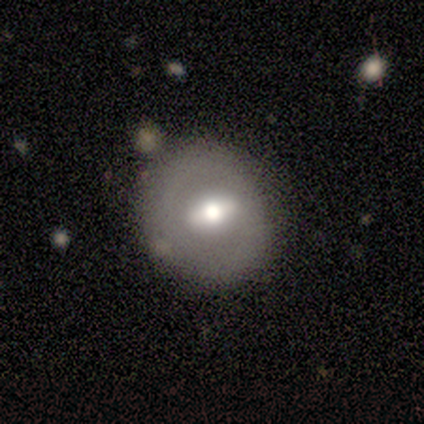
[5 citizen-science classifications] featured or disk 60%, smooth 40%, star or artifact 0%. Down the decision tree: edge-on disk — no (67%); bar — weak (50%, tied with no); spiral arms — no (100%); bulge size — moderate (100%); merging — none (80%).